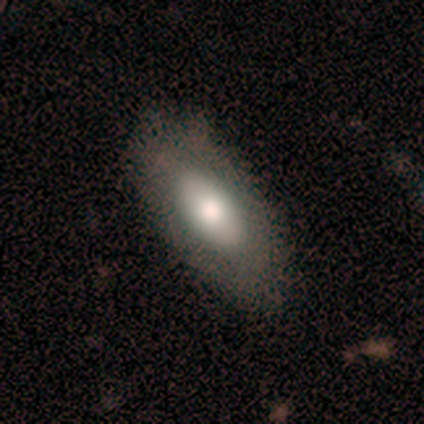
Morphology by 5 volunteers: type=smooth (60%); roundness=in between (100%); merging=none (60%).